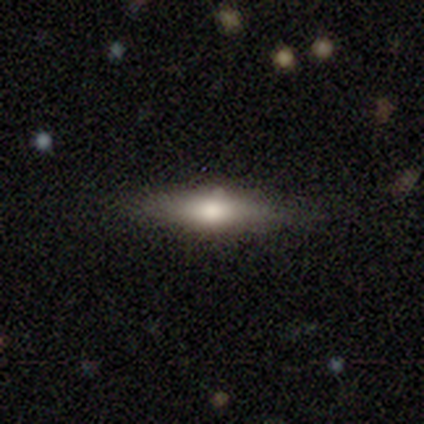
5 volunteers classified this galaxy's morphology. Q: Smooth or featured?
A: featured or disk (60%); runner-up: smooth (20%)
Q: Edge-on disk?
A: yes (100%)
Q: Edge-on bulge?
A: rounded (67%); runner-up: boxy (33%)
Q: Merging?
A: none (75%); runner-up: merger (25%)